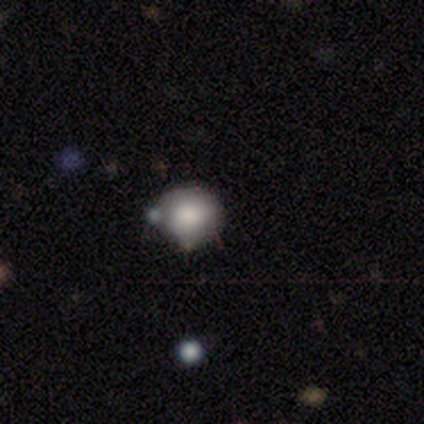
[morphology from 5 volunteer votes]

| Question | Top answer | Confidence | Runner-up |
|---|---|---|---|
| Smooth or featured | smooth | 100% | — |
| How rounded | round | 80% | in between (20%) |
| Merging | none | 80% | merger (20%) |